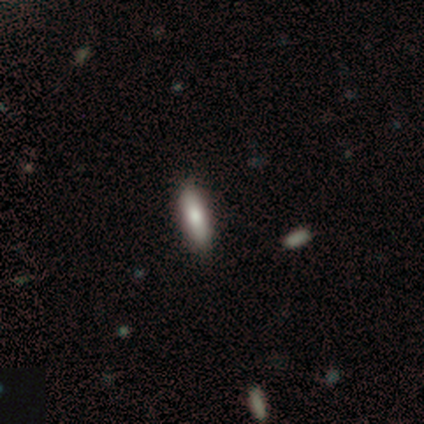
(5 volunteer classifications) Smooth or featured? 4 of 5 (80%) said smooth. How rounded? 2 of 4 (50%, tied with cigar-shaped) said in between. Merging? 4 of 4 (100%) said none.